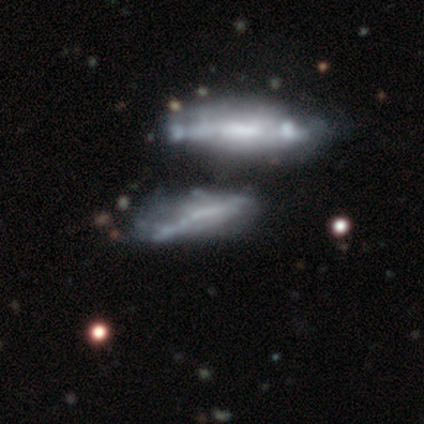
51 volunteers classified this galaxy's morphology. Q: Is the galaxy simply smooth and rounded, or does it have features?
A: featured or disk — 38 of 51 (75%).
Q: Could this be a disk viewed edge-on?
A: no — 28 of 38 (74%).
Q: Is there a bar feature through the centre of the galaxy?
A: no — 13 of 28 (46%).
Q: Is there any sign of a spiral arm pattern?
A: no — 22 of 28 (79%).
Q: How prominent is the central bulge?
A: none — 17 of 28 (61%).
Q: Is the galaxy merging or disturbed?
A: none — 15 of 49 (31%).